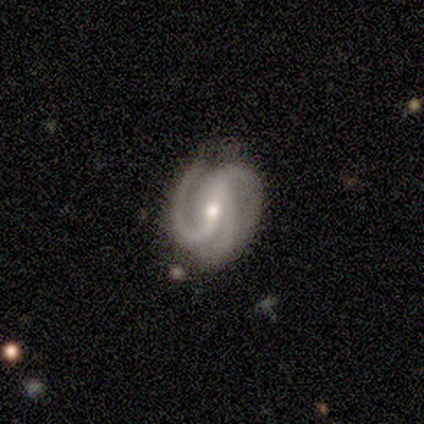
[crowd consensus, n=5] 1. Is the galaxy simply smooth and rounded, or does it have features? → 80% featured or disk, 20% star or artifact, 0% smooth.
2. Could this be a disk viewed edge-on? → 100% no, 0% yes.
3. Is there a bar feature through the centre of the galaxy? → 50% strong (tied), 50% weak (tied), 0% no.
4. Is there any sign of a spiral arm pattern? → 100% yes, 0% no.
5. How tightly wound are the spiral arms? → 50% tight (tied), 50% medium (tied), 0% loose.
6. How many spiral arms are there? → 75% 3, 25% 2, 0% 1, 0% 4, 0% more than 4, 0% can't tell.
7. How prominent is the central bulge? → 50% moderate (tied), 50% small (tied), 0% dominant, 0% large, 0% none.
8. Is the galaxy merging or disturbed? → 100% none, 0% minor disturbance, 0% major disturbance, 0% merger.